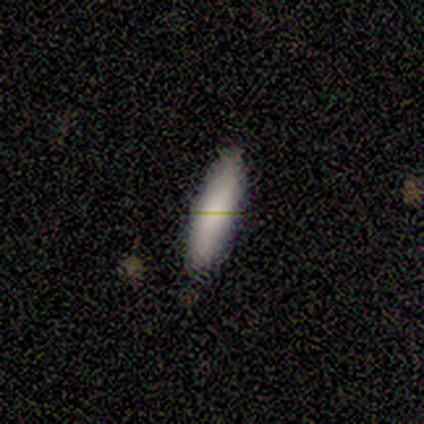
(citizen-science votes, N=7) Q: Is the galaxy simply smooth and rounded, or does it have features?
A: smooth — 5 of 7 (71%).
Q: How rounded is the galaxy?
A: in between — 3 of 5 (60%).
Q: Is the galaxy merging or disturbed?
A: none — 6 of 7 (86%).